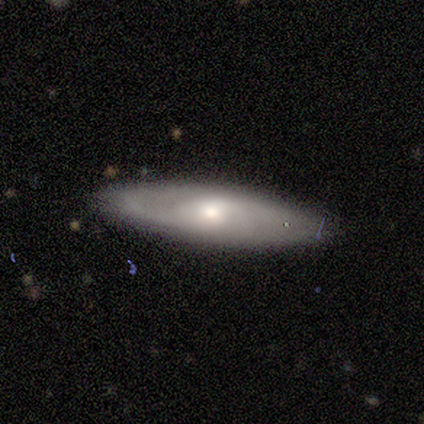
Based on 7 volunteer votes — Smooth or featured?
  - featured or disk: 86% *
  - smooth: 14%
  - star or artifact: 0%
Edge-on disk?
  - no: 100% *
  - yes: 0%
Bar?
  - weak: 50% *
  - no: 33%
  - strong: 17%
Spiral arms?
  - yes: 100% *
  - no: 0%
Spiral winding?
  - loose: 67% *
  - medium: 33%
  - tight: 0%
Spiral arm count?
  - 2: 83% *
  - can't tell: 17%
  - 1: 0%
  - 3: 0%
  - 4: 0%
  - more than 4: 0%
Bulge size?
  - moderate: 50% * (tied)
  - small: 50% * (tied)
  - dominant: 0%
  - large: 0%
  - none: 0%
Merging?
  - none: 86% *
  - major disturbance: 14%
  - minor disturbance: 0%
  - merger: 0%